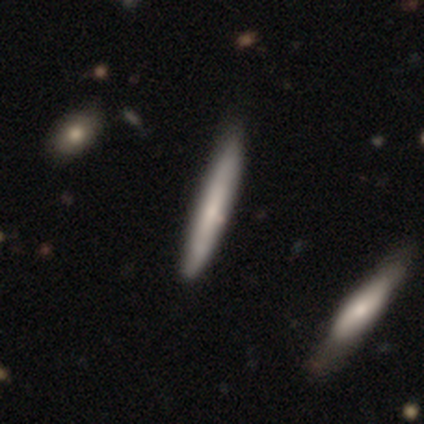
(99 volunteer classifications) Volunteers were most divided on "smooth or featured": smooth: 62%, featured or disk: 35%, star or artifact: 3%. More confident: how rounded — cigar-shaped (97%); merging — none (70%).